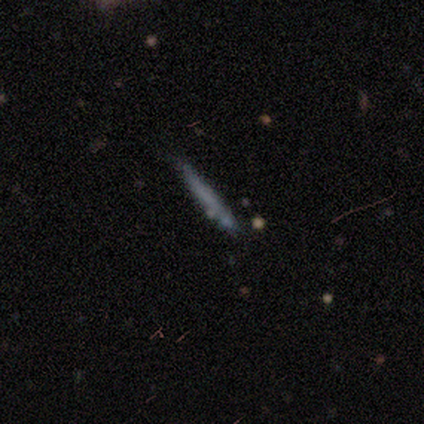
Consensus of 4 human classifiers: smooth-or-featured: smooth: 100% | featured or disk: 0% | star or artifact: 0%
  how-rounded: cigar-shaped: 100% | round: 0% | in between: 0%
  merging: none: 75% | minor disturbance: 25% | major disturbance: 0% | merger: 0%